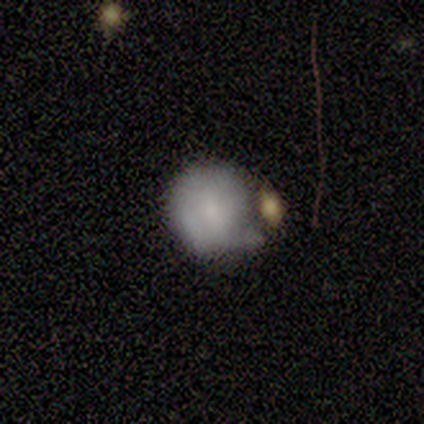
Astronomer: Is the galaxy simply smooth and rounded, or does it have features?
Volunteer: smooth — 57% (runner-up: featured or disk, 43%).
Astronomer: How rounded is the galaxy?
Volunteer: round — 100%.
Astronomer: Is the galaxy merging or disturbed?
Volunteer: minor disturbance — 57% (runner-up: merger, 43%).